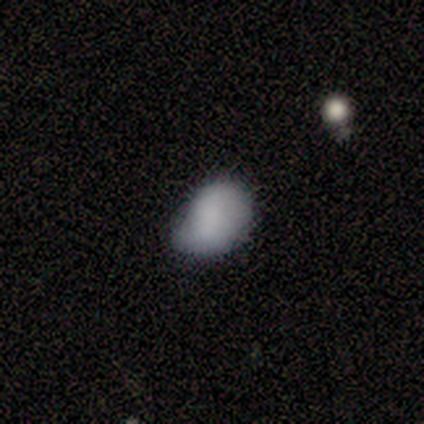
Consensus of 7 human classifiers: A smooth galaxy with no disk features (57%) that is in between round and cigar-shaped (100%). Merging: none (67%).